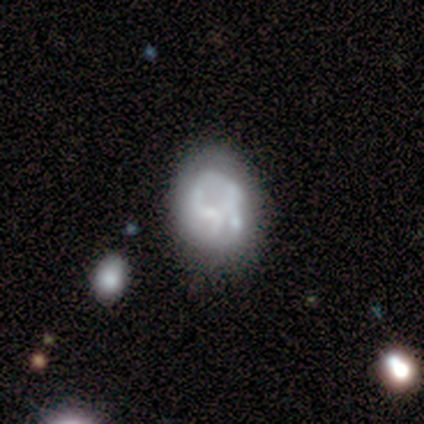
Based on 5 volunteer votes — Morphology: type=featured or disk (60%); edge-on=no (100%); bar=no (67%); spiral arms=yes (67%); winding=loose (100%); arm count=2 (50%, tied with can't tell); bulge=none (67%); merging=none (33%, tied with major disturbance and merger).